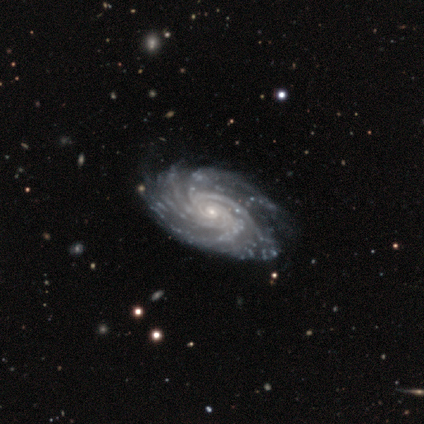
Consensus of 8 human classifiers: Volunteers were most divided on "bulge size": small: 50%, moderate: 25%, large: 12%, none: 12%, dominant: 0%. More confident: smooth or featured — featured or disk (100%); edge-on disk — no (100%); spiral arms — yes (100%); spiral arm count — more than 4 (88%); bar — no (75%); spiral winding — tight (75%); merging — none (75%).